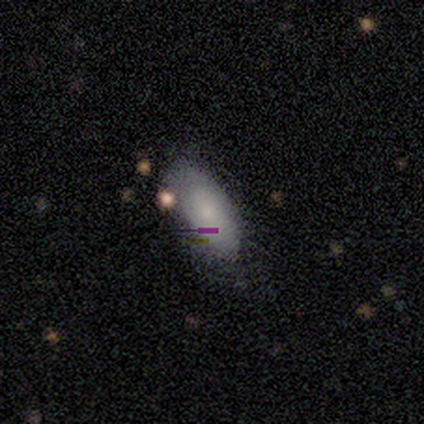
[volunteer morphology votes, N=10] smooth-or-featured: smooth: 60% | featured or disk: 40% | star or artifact: 0%
  how-rounded: in between: 100% | round: 0% | cigar-shaped: 0%
  merging: none: 80% | minor disturbance: 20% | major disturbance: 0% | merger: 0%